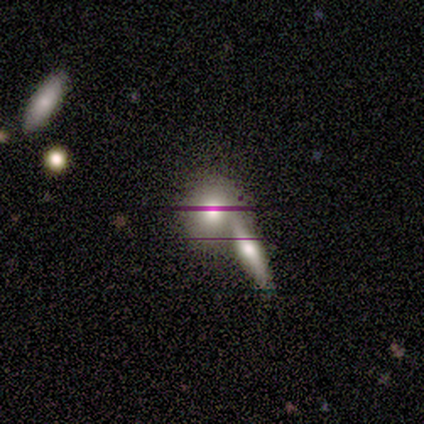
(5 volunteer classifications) A smooth galaxy with no disk features (60%) that is round (100%).

Vote fractions:
- Smooth or featured? smooth: 60% / featured or disk: 40% / star or artifact: 0%
- How rounded? round: 100% / in between: 0% / cigar-shaped: 0%
- Merging? merger: 80% / none: 20% / minor disturbance: 0% / major disturbance: 0%